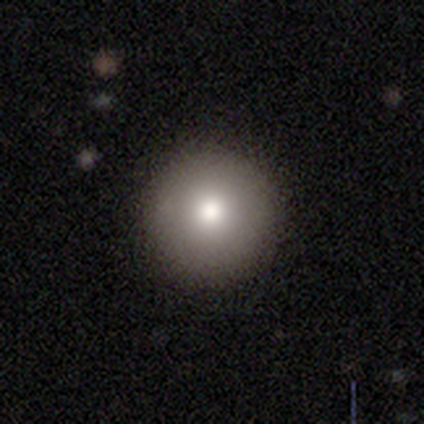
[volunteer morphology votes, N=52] Volunteers were most divided on "smooth or featured": smooth: 77%, featured or disk: 17%, star or artifact: 6%. More confident: how rounded — round (100%); merging — none (90%).